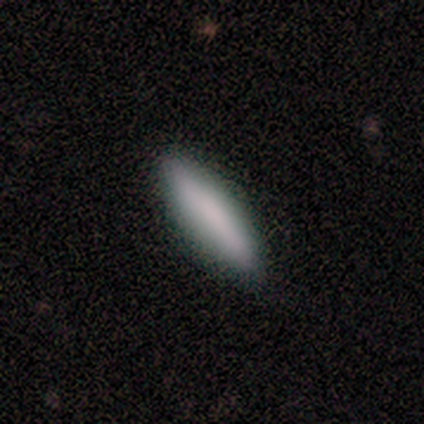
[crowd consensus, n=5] A smooth galaxy with no disk features (100%) that is cigar-shaped (100%).

Vote fractions:
- Smooth or featured? smooth: 100% / featured or disk: 0% / star or artifact: 0%
- How rounded? cigar-shaped: 100% / round: 0% / in between: 0%
- Merging? none: 100% / minor disturbance: 0% / major disturbance: 0% / merger: 0%